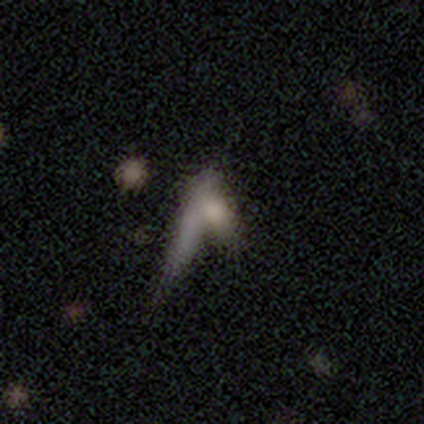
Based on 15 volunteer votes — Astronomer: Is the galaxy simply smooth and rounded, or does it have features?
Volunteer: featured or disk — 40% (runner-up: smooth, 33%).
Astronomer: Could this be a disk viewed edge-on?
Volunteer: no — 83%.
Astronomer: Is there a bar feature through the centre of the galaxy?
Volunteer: no — 80%.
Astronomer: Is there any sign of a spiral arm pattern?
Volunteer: no — 100%.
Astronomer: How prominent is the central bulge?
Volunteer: large — 40%, tied with none at 40%.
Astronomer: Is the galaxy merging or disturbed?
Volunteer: none — 27%, tied with minor disturbance and merger at 27%.